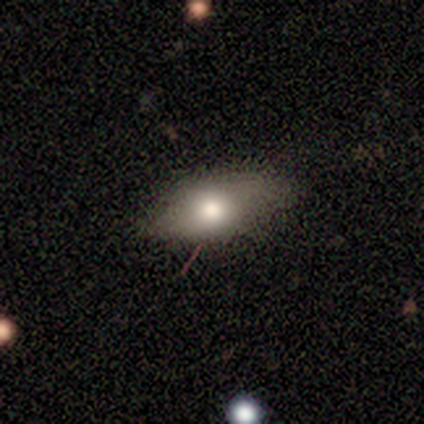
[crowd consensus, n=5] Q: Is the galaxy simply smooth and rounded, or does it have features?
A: featured or disk — 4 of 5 (80%).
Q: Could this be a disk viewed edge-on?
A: yes — 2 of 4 (50%, tied with no).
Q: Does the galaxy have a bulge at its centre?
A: rounded — 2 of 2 (100%).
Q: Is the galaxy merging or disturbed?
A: none — 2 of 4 (50%, tied with minor disturbance).